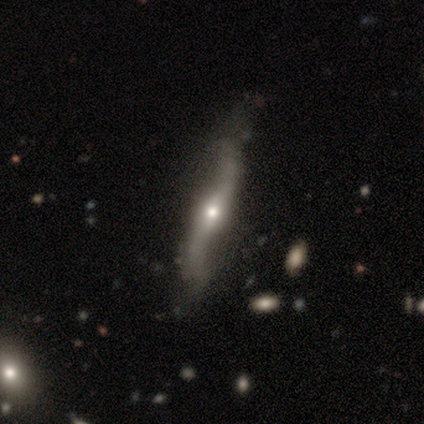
Volunteers were most divided on "edge-on bulge" (2-way tie): none: 50%, rounded: 50%, boxy: 0%; "merging" (2-way tie): major disturbance: 50%, merger: 50%, none: 0%, minor disturbance: 0%. More confident: edge-on disk — yes (67%); smooth or featured — featured or disk (60%).